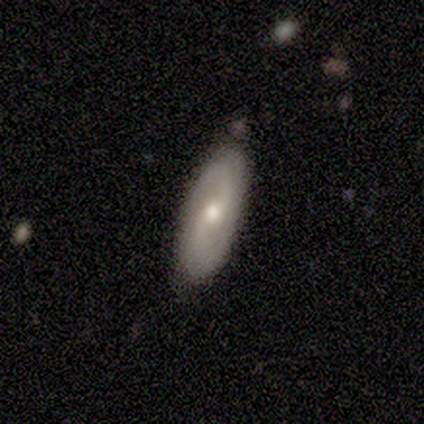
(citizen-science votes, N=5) Q: Smooth or featured?
A: smooth (40%); tied with: featured or disk (40%)
Q: How rounded?
A: in between (100%)
Q: Merging?
A: none (75%); runner-up: minor disturbance (25%)